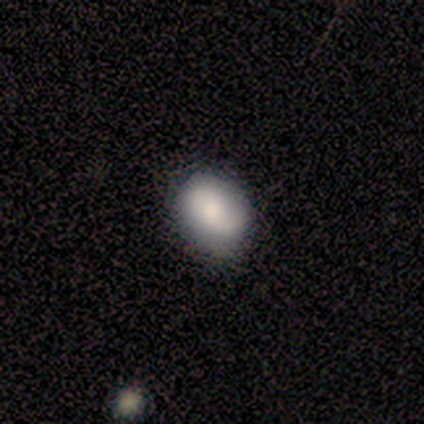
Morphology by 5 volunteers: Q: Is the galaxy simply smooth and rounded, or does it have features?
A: smooth — 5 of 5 (100%).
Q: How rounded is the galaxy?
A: in between — 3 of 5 (60%).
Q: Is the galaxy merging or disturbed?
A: none — 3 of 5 (60%).